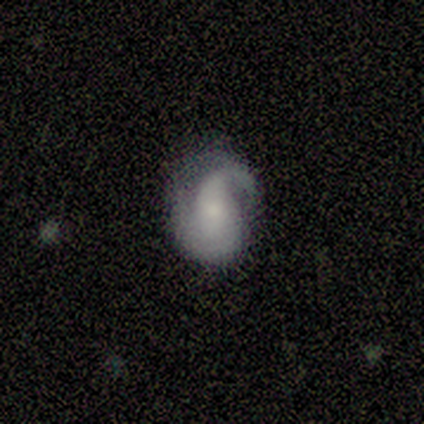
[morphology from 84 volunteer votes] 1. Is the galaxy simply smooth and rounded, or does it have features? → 70% featured or disk, 27% smooth, 2% star or artifact.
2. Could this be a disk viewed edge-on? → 95% no, 5% yes.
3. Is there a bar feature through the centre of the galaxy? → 62% no, 21% weak, 16% strong.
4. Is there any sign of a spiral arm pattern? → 91% yes, 9% no.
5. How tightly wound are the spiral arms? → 41% medium, 35% tight, 24% loose.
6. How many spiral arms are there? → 49% 2, 37% 1, 12% can't tell, 2% 3, 0% 4, 0% more than 4.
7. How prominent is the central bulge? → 48% small, 25% moderate, 16% large, 11% none, 0% dominant.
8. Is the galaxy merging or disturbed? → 43% none, 34% minor disturbance, 23% major disturbance, 0% merger.